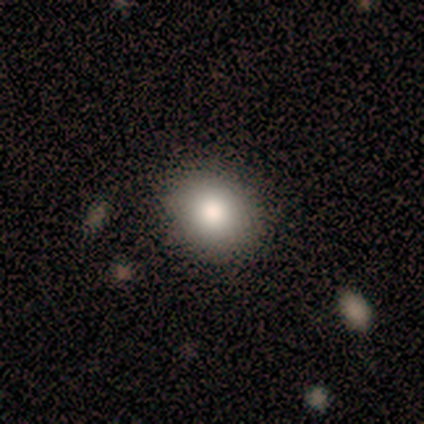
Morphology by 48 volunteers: Q: Smooth or featured?
A: smooth (88%); runner-up: featured or disk (8%)
Q: How rounded?
A: round (64%); runner-up: in between (36%)
Q: Merging?
A: none (91%); runner-up: minor disturbance (9%)